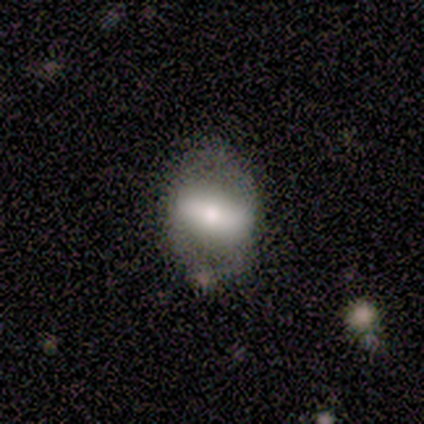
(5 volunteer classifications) This is clearly a featured or disk galaxy (80%). It is likely not viewed edge-on (75%). Bar: clearly strong (100%). Spiral arm pattern: likely yes (67%). Spiral arm count: clearly 2 (100%). Spiral winding: possibly tight (50%, tied with loose). Central bulge: likely large (67%). Merging: clearly none (80%).